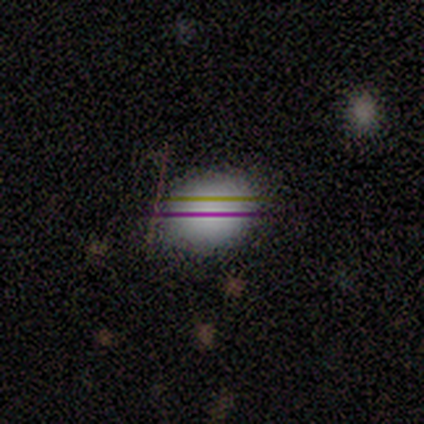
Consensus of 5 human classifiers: Morphology: type=smooth (40%, tied with featured or disk); roundness=in between (100%); merging=none (75%).